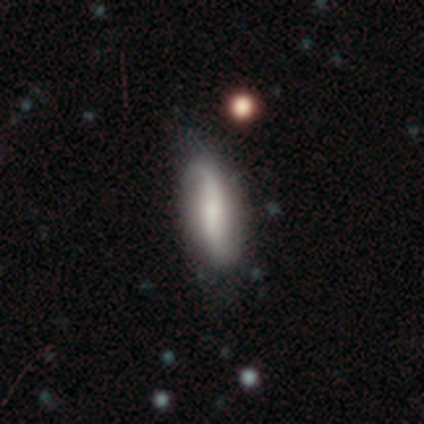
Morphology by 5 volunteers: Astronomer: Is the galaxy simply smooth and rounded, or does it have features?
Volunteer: featured or disk — 60%.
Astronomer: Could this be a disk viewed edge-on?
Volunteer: no — 100%.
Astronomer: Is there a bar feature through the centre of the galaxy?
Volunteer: strong — 33%, tied with weak and no at 33%.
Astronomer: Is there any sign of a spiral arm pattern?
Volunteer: yes — 100%.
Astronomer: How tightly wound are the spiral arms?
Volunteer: loose — 67%.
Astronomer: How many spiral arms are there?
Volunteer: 2 — 100%.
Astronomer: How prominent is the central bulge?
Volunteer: large — 33%, tied with moderate and small at 33%.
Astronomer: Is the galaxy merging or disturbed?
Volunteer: none — 50%, tied with minor disturbance at 50%.